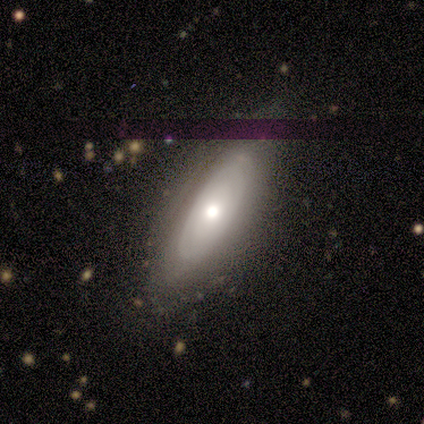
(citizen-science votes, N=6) smooth 50% (tied), featured or disk 50% (tied), star or artifact 0%. Down the decision tree: how rounded — in between (100%); merging — none (50%, tied with minor disturbance).